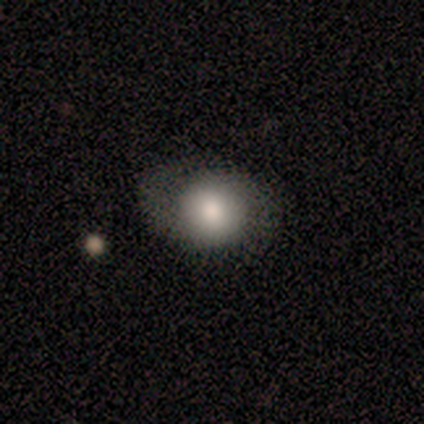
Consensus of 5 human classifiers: Smooth or featured? smooth (60%)
How rounded? round (100%)
Merging? none (67%)